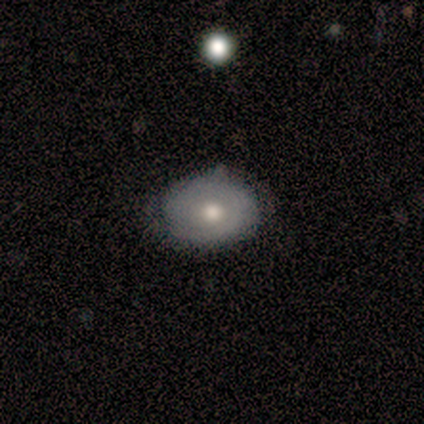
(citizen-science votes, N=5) Smooth or featured?
  - featured or disk: 60% *
  - smooth: 20%
  - star or artifact: 20%
Edge-on disk?
  - no: 100% *
  - yes: 0%
Bar?
  - no: 100% *
  - strong: 0%
  - weak: 0%
Spiral arms?
  - yes: 67% *
  - no: 33%
Spiral winding?
  - tight: 50% * (tied)
  - medium: 50% * (tied)
  - loose: 0%
Spiral arm count?
  - can't tell: 100% *
  - 1: 0%
  - 2: 0%
  - 3: 0%
  - 4: 0%
  - more than 4: 0%
Bulge size?
  - moderate: 67% *
  - large: 33%
  - dominant: 0%
  - small: 0%
  - none: 0%
Merging?
  - none: 50% * (tied)
  - minor disturbance: 50% * (tied)
  - major disturbance: 0%
  - merger: 0%